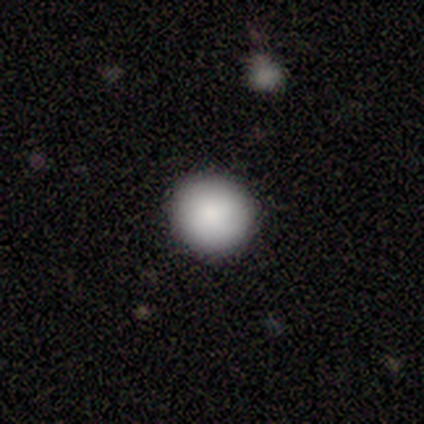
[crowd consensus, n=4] A smooth galaxy with no disk features (50%, tied with star or artifact) that is round (100%).

Vote fractions:
- Smooth or featured? smooth: 50% (tied) / star or artifact: 50% (tied) / featured or disk: 0%
- How rounded? round: 100% / in between: 0% / cigar-shaped: 0%
- Merging? none: 100% / minor disturbance: 0% / major disturbance: 0% / merger: 0%